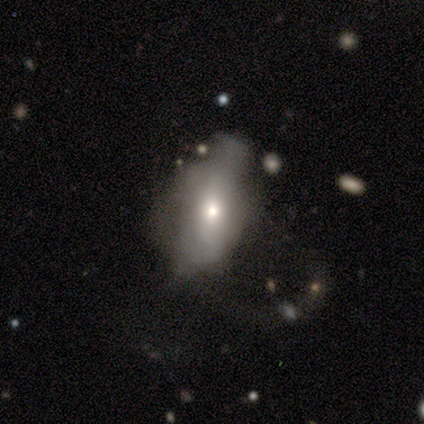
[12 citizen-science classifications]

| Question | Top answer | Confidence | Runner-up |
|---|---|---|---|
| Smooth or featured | featured or disk | 58% | smooth (42%) |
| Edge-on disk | no | 100% | — |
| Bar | no | 57% | strong (29%) |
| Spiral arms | no | 86% | yes (14%) |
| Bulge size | moderate | 57% | small (43%) |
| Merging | major disturbance | 58% | minor disturbance (42%) |